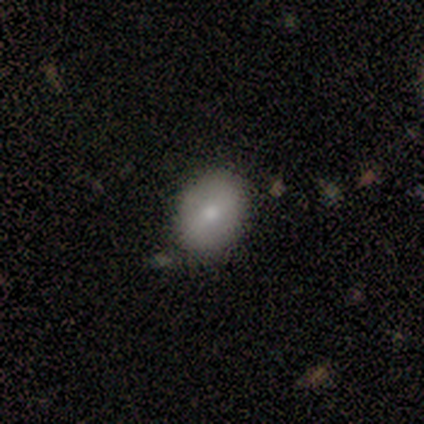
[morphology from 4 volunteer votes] smooth_or_featured: smooth (p=1.00)
how_rounded: in between (p=1.00)
merging: none (p=1.00)